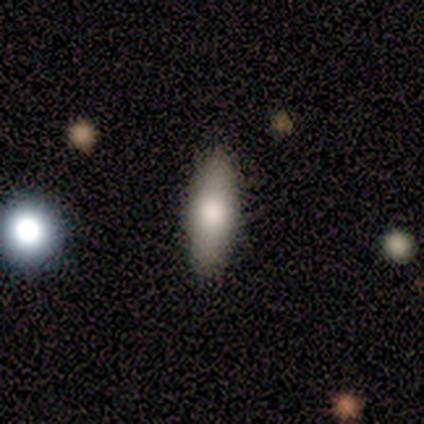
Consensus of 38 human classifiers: smooth-or-featured: smooth: 82% | featured or disk: 18% | star or artifact: 0%
  how-rounded: in between: 65% | cigar-shaped: 35% | round: 0%
  merging: none: 66% | merger: 8% | minor disturbance: 5% | major disturbance: 3%